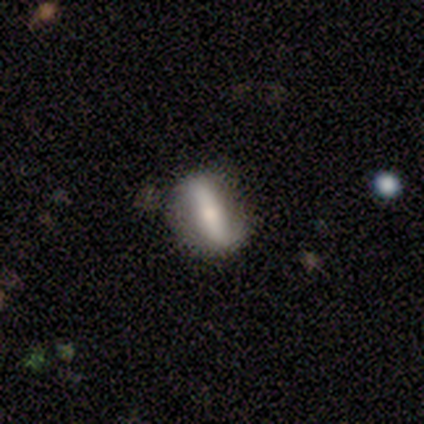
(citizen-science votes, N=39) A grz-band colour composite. It shows a featured or disk galaxy (67%) with a strong bar (86%), no spiral arms (71%) and a moderate central bulge (52%). Merging: none (81%).